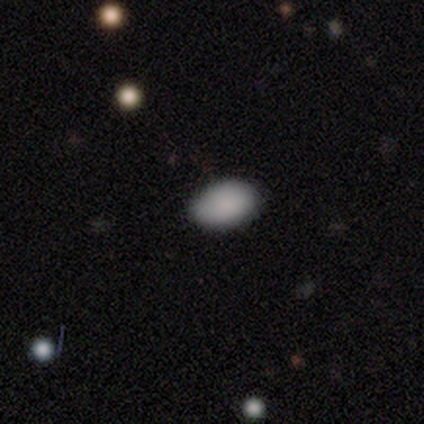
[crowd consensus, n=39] Overall: smooth (87%). How rounded: in between (97%). Merging: none (89%).